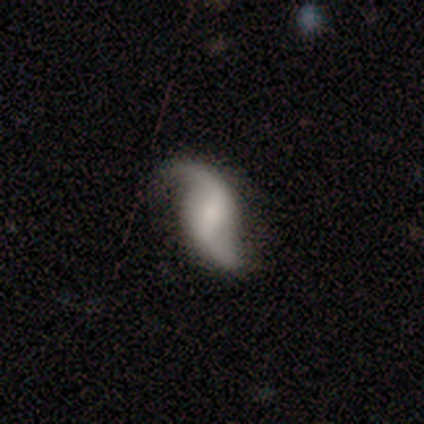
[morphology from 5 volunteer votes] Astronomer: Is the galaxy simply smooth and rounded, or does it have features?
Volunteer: featured or disk — 100%.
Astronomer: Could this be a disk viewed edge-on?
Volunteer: no — 100%.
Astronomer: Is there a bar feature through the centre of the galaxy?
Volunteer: weak — 80%.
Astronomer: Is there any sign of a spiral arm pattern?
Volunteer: yes — 80%.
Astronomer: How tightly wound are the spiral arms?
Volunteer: loose — 100%.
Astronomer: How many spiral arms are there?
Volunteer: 2 — 100%.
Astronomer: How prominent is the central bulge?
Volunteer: moderate — 40%, tied with none at 40%.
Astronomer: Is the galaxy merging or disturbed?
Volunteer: minor disturbance — 60% (runner-up: none, 40%).